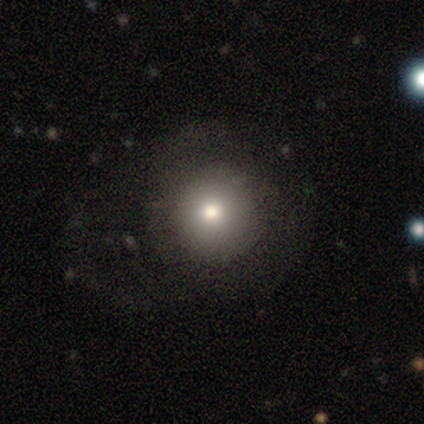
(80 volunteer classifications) Morphology: type=smooth (75%); roundness=round (97%); merging=none (41%).